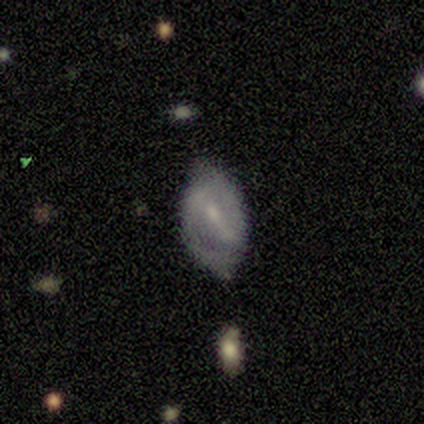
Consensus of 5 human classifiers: A featured or disk galaxy (80%) with a strong bar (75%), 2 (75%) medium (75%) spiral arms (100%) and a small central bulge (50%). Merging: none (60%).